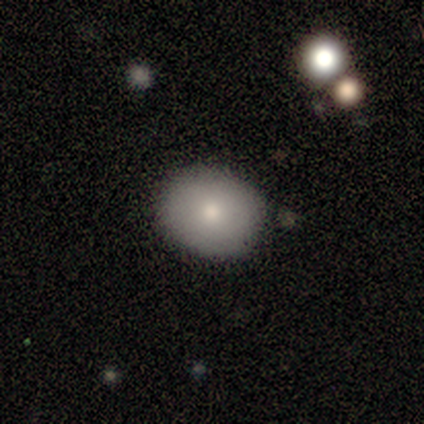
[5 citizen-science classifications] smooth_or_featured: smooth (p=0.60) [alt: featured or disk p=0.20]
how_rounded: in between (p=0.67) [alt: round p=0.33]
merging: none (p=1.00)